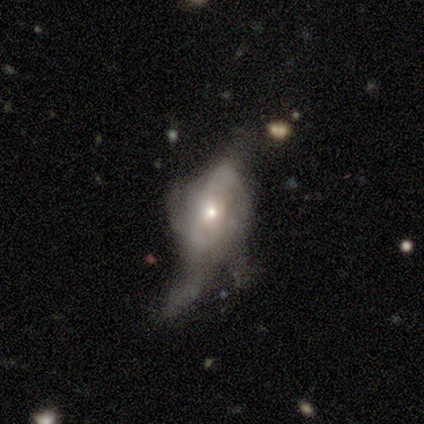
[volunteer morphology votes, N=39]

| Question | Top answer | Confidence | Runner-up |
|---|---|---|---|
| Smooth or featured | featured or disk | 82% | smooth (15%) |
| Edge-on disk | no | 84% | yes (16%) |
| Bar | no | 70% | weak (22%) |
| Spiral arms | yes | 70% | no (30%) |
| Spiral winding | loose | 53% | medium (26%) |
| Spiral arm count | can't tell | 58% | 2 (32%) |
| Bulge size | small | 70% | moderate (26%) |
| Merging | major disturbance | 50% | none (24%) |